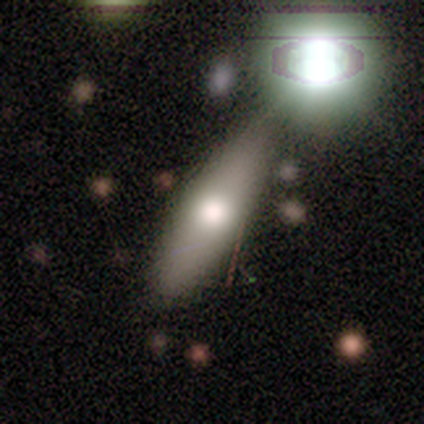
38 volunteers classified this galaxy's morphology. This appears to be a smooth galaxy with no disk features (71%) that is in between round and cigar-shaped (52%). Merging: none (46%).